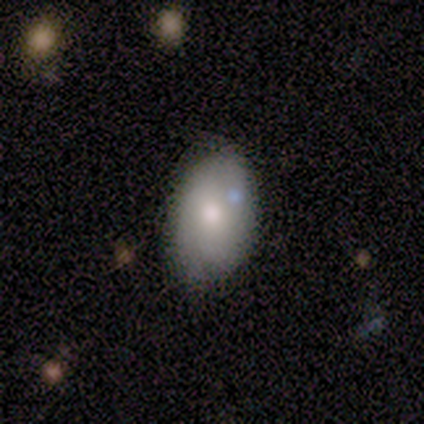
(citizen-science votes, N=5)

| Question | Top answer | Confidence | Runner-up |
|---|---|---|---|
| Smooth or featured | smooth | 60% | featured or disk (40%) |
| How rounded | in between | 100% | — |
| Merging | none | 60% | minor disturbance (40%) |